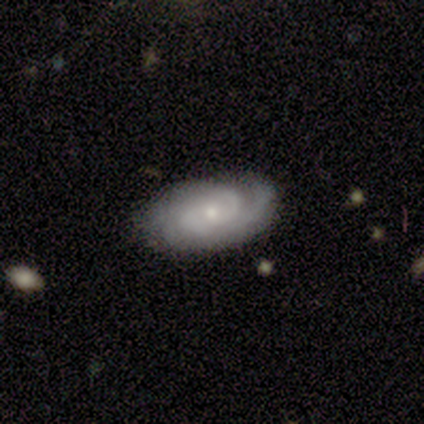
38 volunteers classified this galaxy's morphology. A featured or disk galaxy (82%) with no bar (86%), 2 (46%) tight (71%) spiral arms (97%) and a small central bulge (72%). Merging: none (65%).